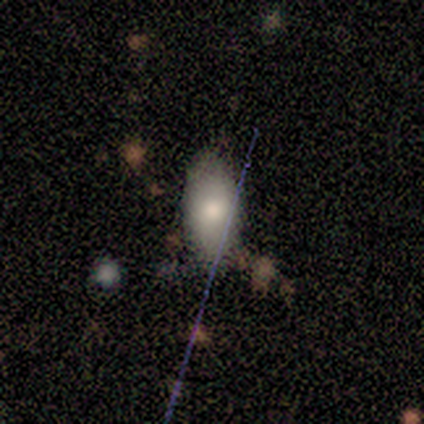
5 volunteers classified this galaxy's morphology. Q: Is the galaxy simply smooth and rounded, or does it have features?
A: smooth — 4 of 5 (80%).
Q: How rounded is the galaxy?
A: in between — 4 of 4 (100%).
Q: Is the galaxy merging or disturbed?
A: none — 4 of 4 (100%).